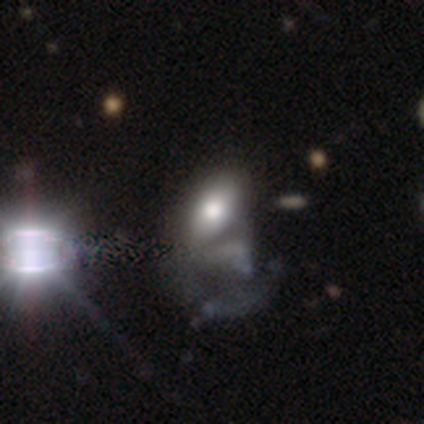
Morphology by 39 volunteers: Q: Smooth or featured?
A: smooth (59%); runner-up: featured or disk (23%)
Q: How rounded?
A: in between (87%); runner-up: round (13%)
Q: Merging?
A: major disturbance (41%); runner-up: merger (31%)